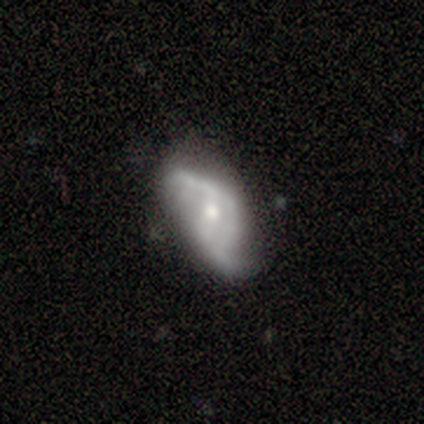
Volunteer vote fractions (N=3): Volunteers were most divided on "spiral arms" (2-way tie): yes: 50%, no: 50%; "bulge size" (2-way tie): moderate: 50%, small: 50%, dominant: 0%, large: 0%, none: 0%; "merging" (3-way tie): none: 33%, minor disturbance: 33%, major disturbance: 33%, merger: 0%. More confident: smooth or featured — featured or disk (100%); bar — no (100%); spiral winding — loose (100%); spiral arm count — 2 (100%); edge-on disk — no (67%).